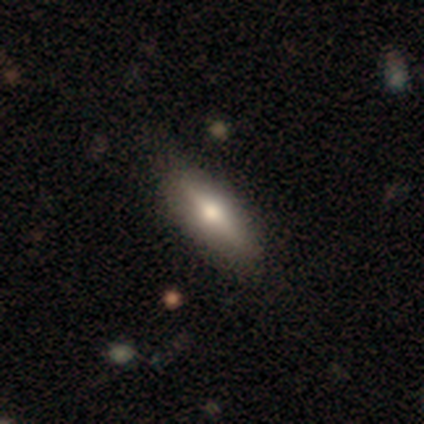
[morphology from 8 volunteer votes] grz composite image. It shows a smooth galaxy with no disk features (50%) that is in between round and cigar-shaped (75%). Merging: none (86%).